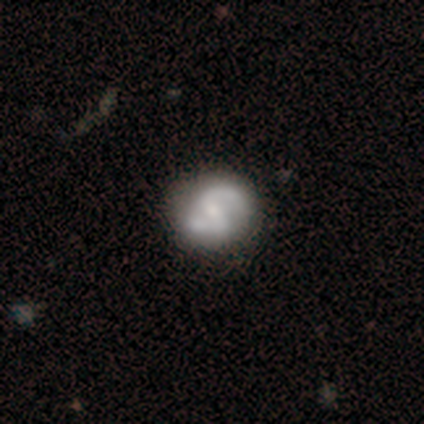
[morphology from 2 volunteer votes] Smooth or featured? smooth (50%, tied with featured or disk)
How rounded? round (100%)
Merging? none (100%)